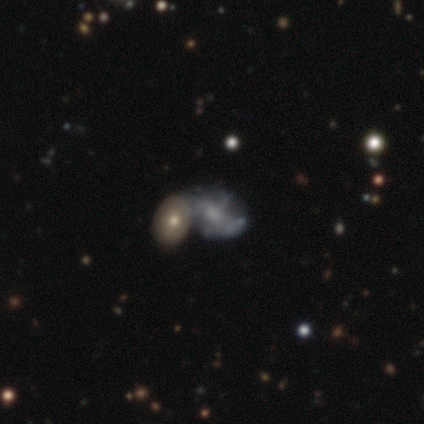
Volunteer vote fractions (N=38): featured or disk 50%, smooth 37%, star or artifact 13%. Down the decision tree: edge-on disk — no (100%); bar — no (74%); spiral arms — yes (53%); spiral arm count — 4 (30%, tied with can't tell); spiral winding — medium (60%); bulge size — moderate (32%, tied with small); merging — merger (55%).